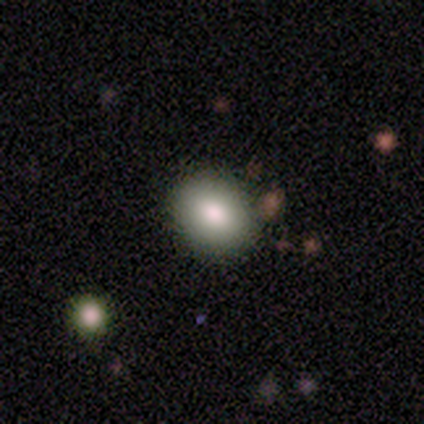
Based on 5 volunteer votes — This is clearly a smooth galaxy (80%). How rounded: clearly in between (100%). Merging: clearly none (100%).